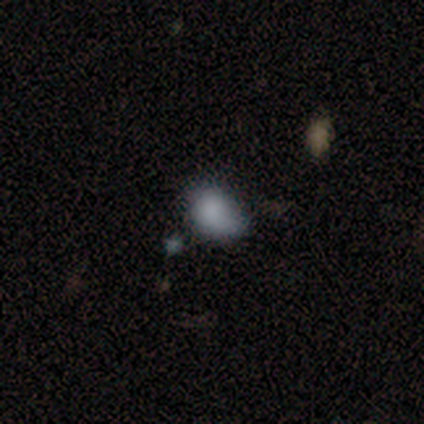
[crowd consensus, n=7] smooth_or_featured: smooth (p=0.86) [alt: featured or disk p=0.14]
how_rounded: in between (p=0.83) [alt: round p=0.17]
merging: minor disturbance (p=0.43) [alt: none p=0.29]